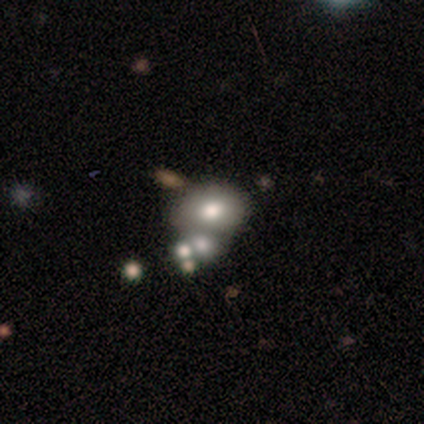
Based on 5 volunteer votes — Volunteers were most divided on "smooth or featured": smooth: 60%, featured or disk: 40%, star or artifact: 0%. More confident: how rounded — in between (67%); merging — minor disturbance (60%).